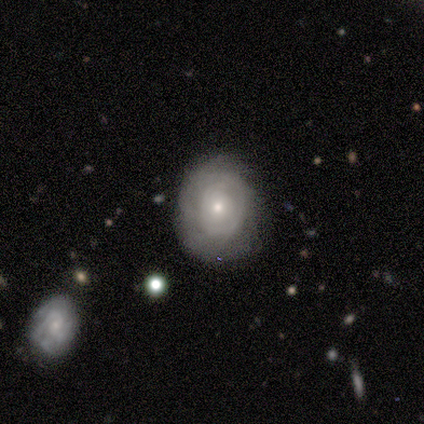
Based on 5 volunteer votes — smooth_or_featured: featured or disk (p=0.60) [alt: smooth p=0.40]
disk_edge_on: no (p=1.00)
bar: no (p=1.00)
has_spiral_arms: yes (p=0.67) [alt: no p=0.33]
spiral_winding: tight (p=1.00)
spiral_arm_count: 2 (p=0.50) [tied with: can't tell p=0.50]
bulge_size: small (p=0.67) [alt: moderate p=0.33]
merging: none (p=0.80) [alt: minor disturbance p=0.20]